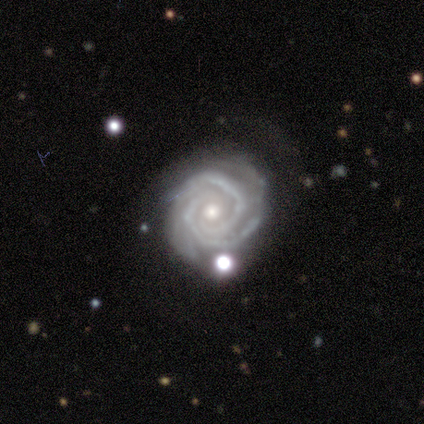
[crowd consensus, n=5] smooth-or-featured: featured or disk: 100% | smooth: 0% | star or artifact: 0%
  disk-edge-on: no: 100% | yes: 0%
    bar: no: 100% | strong: 0% | weak: 0%
    has-spiral-arms: yes: 100% | no: 0%
      spiral-winding: tight: 60% | medium: 40% | loose: 0%
      spiral-arm-count: 2: 60% | 3: 20% | can't tell: 20% | 1: 0% | 4: 0% | more than 4: 0%
    bulge-size: small: 100% | dominant: 0% | large: 0% | moderate: 0% | none: 0%
  merging: none: 80% | minor disturbance: 20% | major disturbance: 0% | merger: 0%